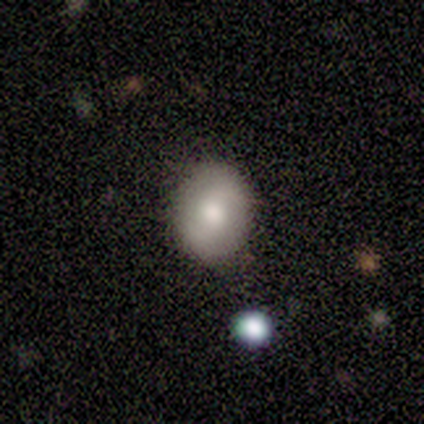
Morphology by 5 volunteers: A featured or disk galaxy (60%) with no bar (100%), 2 (100%) medium (100%) spiral arms (67%) and a moderate central bulge (67%). Merging: none (100%).